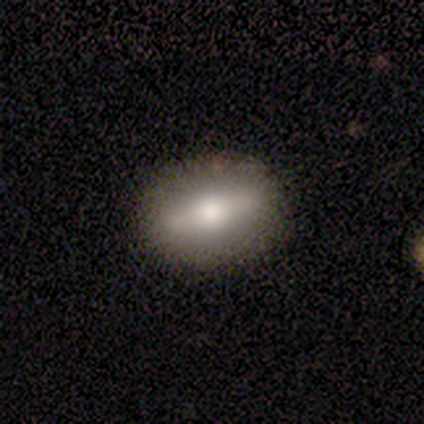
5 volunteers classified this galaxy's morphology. Smooth or featured? featured or disk (60%)
Edge-on disk? yes (100%)
Edge-on bulge? rounded (100%)
Merging? none (100%)